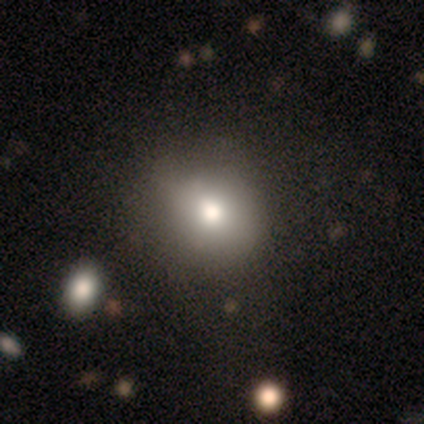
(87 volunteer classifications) Volunteers were most divided on "merging": none: 71%, major disturbance: 14%, minor disturbance: 13%, merger: 1%. More confident: how rounded — round (83%); smooth or featured — smooth (76%).